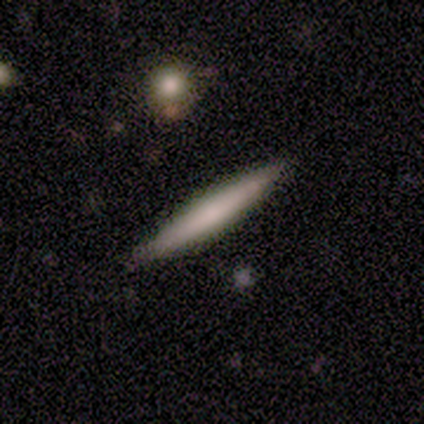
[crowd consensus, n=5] Overall: smooth (60%; featured or disk 20%). How rounded: cigar-shaped (67%; in between 33%). Merging: none (100%).